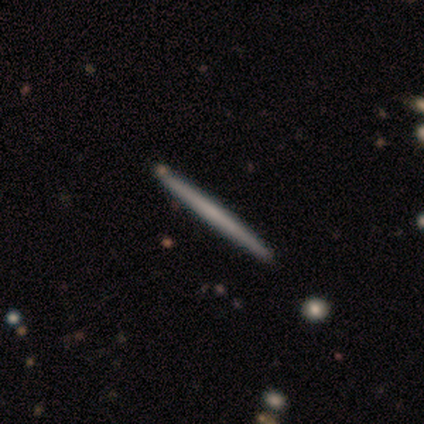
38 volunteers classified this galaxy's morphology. A smooth galaxy with no disk features (55%) that is cigar-shaped (100%). Merging: none (86%).